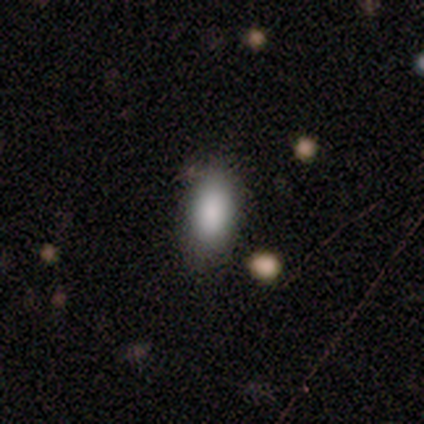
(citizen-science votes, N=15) Smooth or featured?
  - smooth: 100% *
  - featured or disk: 0%
  - star or artifact: 0%
How rounded?
  - in between: 100% *
  - round: 0%
  - cigar-shaped: 0%
Merging?
  - none: 87% *
  - minor disturbance: 13%
  - major disturbance: 0%
  - merger: 0%